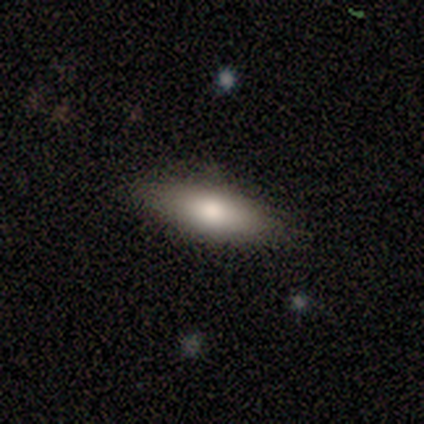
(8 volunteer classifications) smooth_or_featured: smooth (p=0.50) [tied with: featured or disk p=0.50]
how_rounded: cigar-shaped (p=0.75) [alt: in between p=0.25]
merging: none (p=0.88) [alt: major disturbance p=0.12]